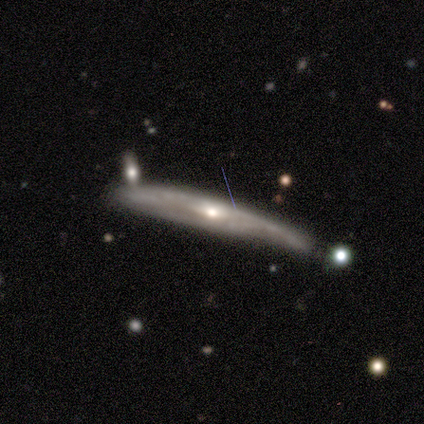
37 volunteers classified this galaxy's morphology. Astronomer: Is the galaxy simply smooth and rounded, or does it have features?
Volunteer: featured or disk — 76%.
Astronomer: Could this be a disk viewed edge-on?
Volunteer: yes — 86%.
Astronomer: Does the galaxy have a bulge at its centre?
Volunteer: rounded — 83%.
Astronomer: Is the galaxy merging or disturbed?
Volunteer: none — 41% (runner-up: minor disturbance, 38%).